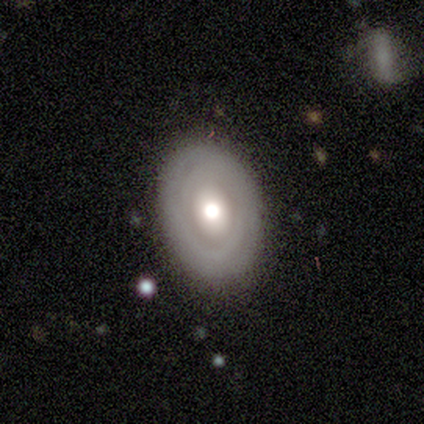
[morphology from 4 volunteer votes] Smooth or featured? featured or disk (100%)
Edge-on disk? no (100%)
Bar? no (100%)
Spiral arms? no (75%)
Bulge size? large (50%, tied with moderate)
Merging? none (100%)